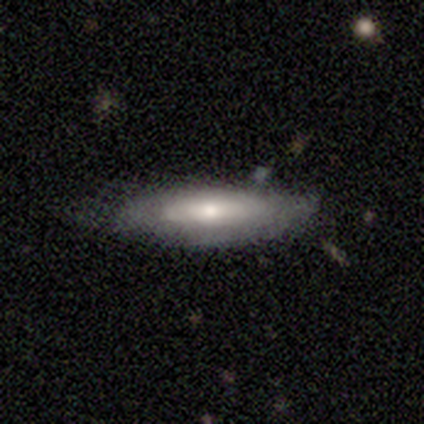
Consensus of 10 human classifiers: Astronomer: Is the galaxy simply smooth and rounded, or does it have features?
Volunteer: smooth — 50%, tied with featured or disk at 50%.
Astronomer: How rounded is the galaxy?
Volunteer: cigar-shaped — 60% (runner-up: in between, 40%).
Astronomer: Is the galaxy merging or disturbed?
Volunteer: none — 60%.